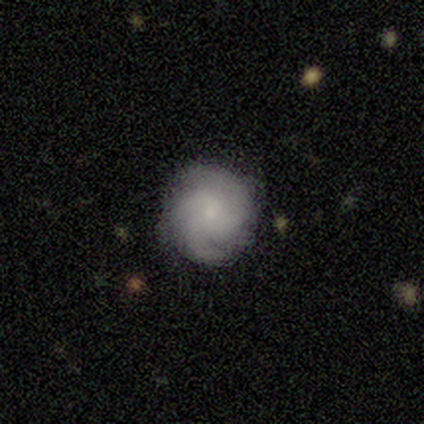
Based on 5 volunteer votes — Morphology: type=featured or disk (80%); edge-on=no (100%); bar=no (100%); spiral arms=yes (100%); winding=medium (75%); arm count=can't tell (50%); bulge=small (100%); merging=none (80%).